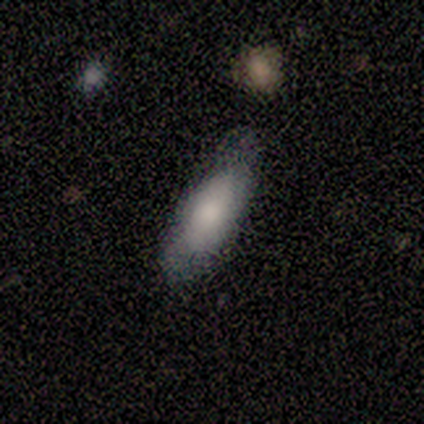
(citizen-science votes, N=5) Smooth or featured? smooth (80%)
How rounded? in between (100%)
Merging? minor disturbance (75%)